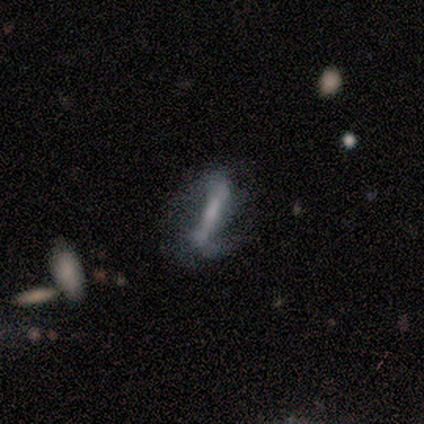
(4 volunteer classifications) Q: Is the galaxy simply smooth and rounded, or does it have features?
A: featured or disk — 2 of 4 (50%).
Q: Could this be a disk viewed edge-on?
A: yes — 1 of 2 (50%, tied with no).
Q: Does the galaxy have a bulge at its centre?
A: none — 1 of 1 (100%).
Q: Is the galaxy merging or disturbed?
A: none — 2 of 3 (67%).